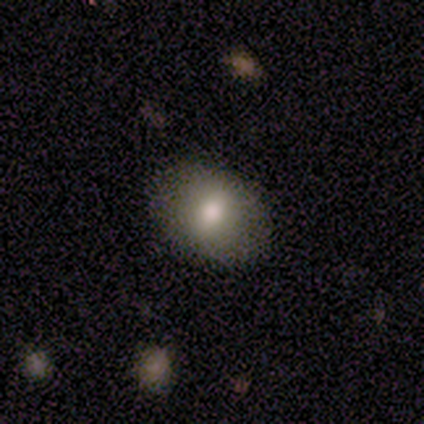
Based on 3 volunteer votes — Smooth or featured?
  - smooth: 100% *
  - featured or disk: 0%
  - star or artifact: 0%
How rounded?
  - in between: 100% *
  - round: 0%
  - cigar-shaped: 0%
Merging?
  - none: 67% *
  - minor disturbance: 33%
  - major disturbance: 0%
  - merger: 0%